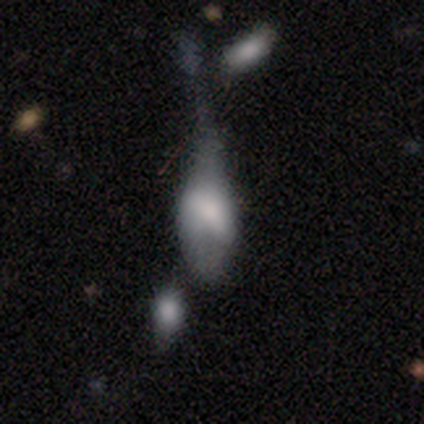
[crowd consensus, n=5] Overall: smooth (60%; featured or disk 20%). How rounded: in between (100%). Merging: merger (50%; minor disturbance 25%).